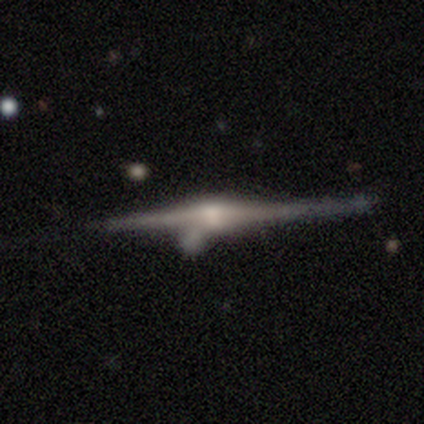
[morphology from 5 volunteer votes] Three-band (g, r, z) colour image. It shows a featured or disk galaxy (100%) viewed edge-on (100%) with a rounded central bulge (100%). Merging: none (60%).